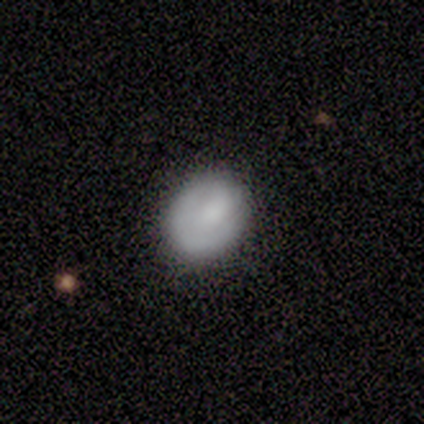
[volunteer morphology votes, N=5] type=smooth (60%); roundness=in between (67%); merging=none (100%).